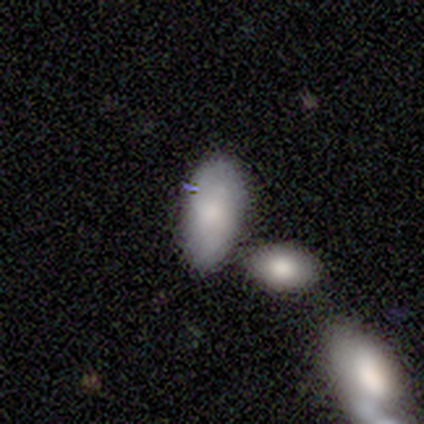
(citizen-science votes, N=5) A smooth galaxy with no disk features (100%) that is in between round and cigar-shaped (100%).

Vote fractions:
- Smooth or featured? smooth: 100% / featured or disk: 0% / star or artifact: 0%
- How rounded? in between: 100% / round: 0% / cigar-shaped: 0%
- Merging? minor disturbance: 40% (tied) / merger: 40% (tied) / none: 20% / major disturbance: 0%